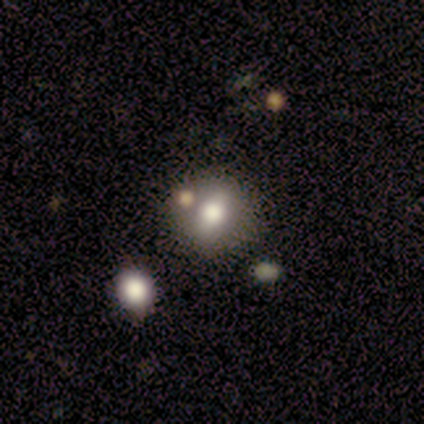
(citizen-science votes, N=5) Smooth or featured? 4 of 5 (80%) said smooth. How rounded? 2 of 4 (50%, tied with in between) said round. Merging? 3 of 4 (75%) said none.